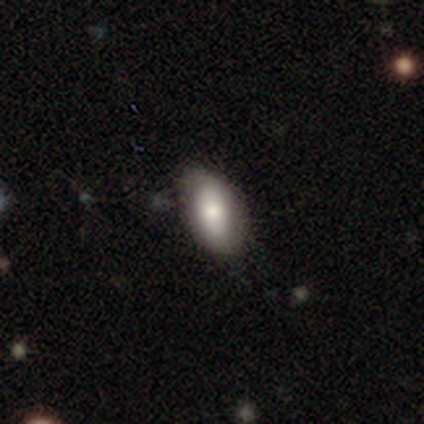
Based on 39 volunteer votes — Morphology: type=smooth (62%); roundness=in between (83%); merging=none (65%).